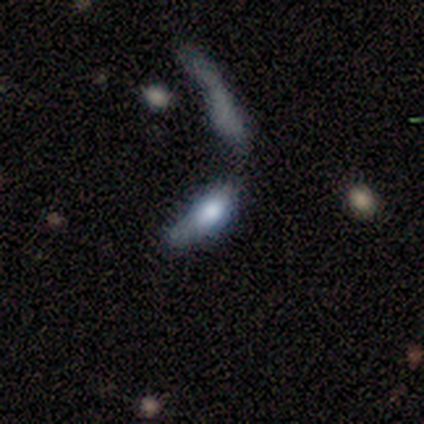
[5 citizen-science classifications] Smooth or featured? featured or disk (60%)
Edge-on disk? no (100%)
Bar? no (67%)
Spiral arms? no (100%)
Bulge size? moderate (67%)
Merging? minor disturbance (40%)